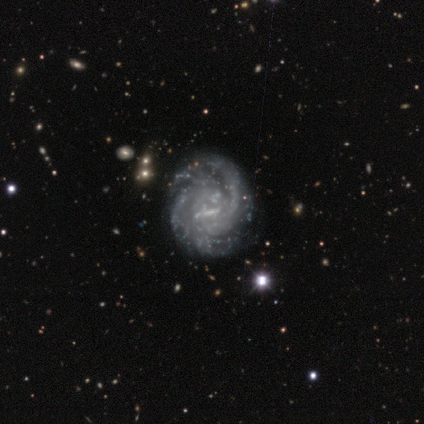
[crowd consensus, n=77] Volunteers were most divided on "spiral arm count": 2: 33%, can't tell: 26%, 3: 17%, 4: 14%, more than 4: 10%, 1: 0%. Remaining: smooth or featured — featured or disk (97%); edge-on disk — no (97%); spiral arms — yes (96%); bulge size — none (78%); spiral winding — tight (70%); merging — none (43%); bar — no (42%).